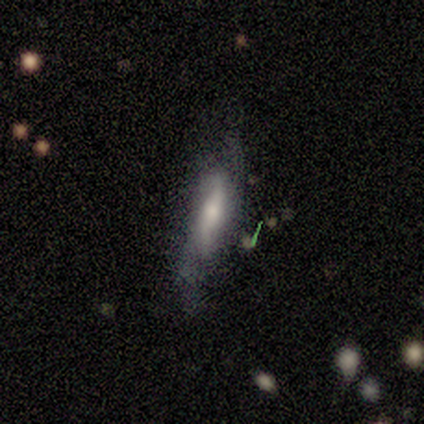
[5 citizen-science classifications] Volunteers were most divided on "spiral winding" (3-way tie): tight: 33%, medium: 33%, loose: 33%; "merging" (2-way tie): none: 40%, minor disturbance: 40%, major disturbance: 20%, merger: 0%. More confident: edge-on disk — no (100%); spiral arms — yes (100%); bulge size — moderate (100%); bar — no (67%); spiral arm count — 2 (67%); smooth or featured — featured or disk (60%).